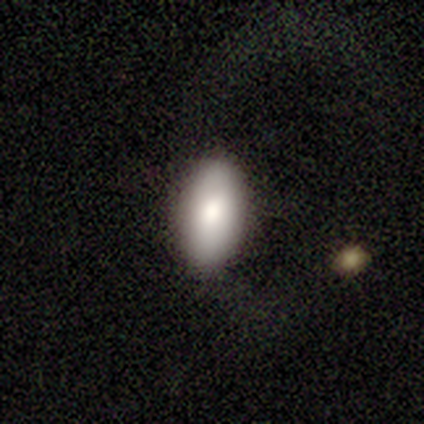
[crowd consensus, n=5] A smooth galaxy with no disk features (100%) that is in between round and cigar-shaped (80%).

Vote fractions:
- Smooth or featured? smooth: 100% / featured or disk: 0% / star or artifact: 0%
- How rounded? in between: 80% / round: 20% / cigar-shaped: 0%
- Merging? none: 100% / minor disturbance: 0% / major disturbance: 0% / merger: 0%